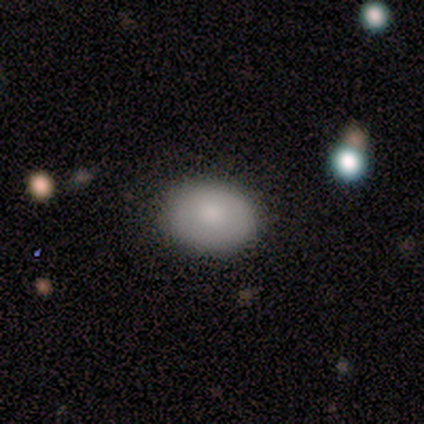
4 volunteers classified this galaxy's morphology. This is likely a smooth galaxy (75%). How rounded: likely in between (67%). Merging: clearly none (100%).